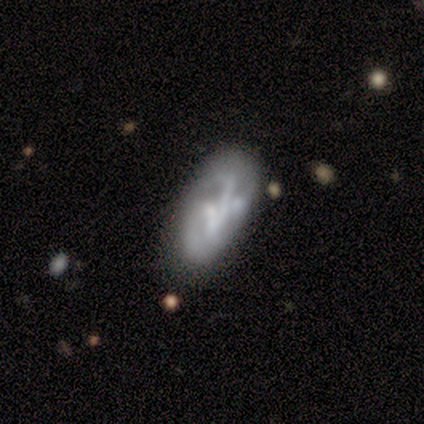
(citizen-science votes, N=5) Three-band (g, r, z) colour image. It shows a featured or disk galaxy (80%) with no bar (100%), medium (67%) spiral arms (75%) and no central bulge (75%). Merging: none (60%).